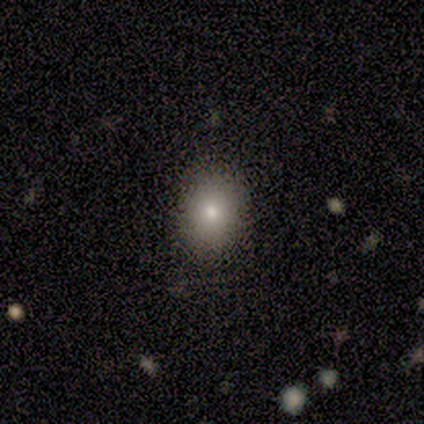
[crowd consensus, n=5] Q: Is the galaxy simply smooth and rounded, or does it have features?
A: smooth — 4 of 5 (80%).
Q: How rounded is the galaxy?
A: in between — 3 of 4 (75%).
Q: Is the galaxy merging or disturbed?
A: none — 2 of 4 (50%, tied with minor disturbance).